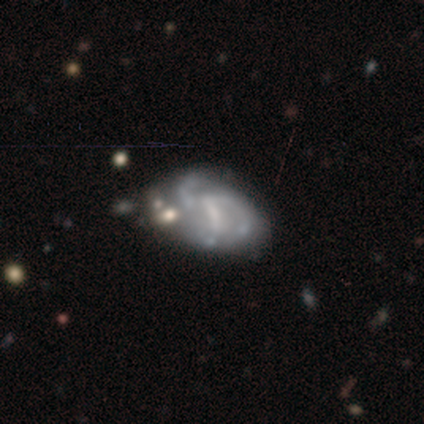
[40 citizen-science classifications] featured or disk 85%, smooth 12%, star or artifact 2%. Down the decision tree: edge-on disk — no (100%); bar — weak (44%); spiral arms — yes (88%); spiral arm count — 3 (53%); spiral winding — medium (47%); bulge size — none (44%); merging — none (26%).